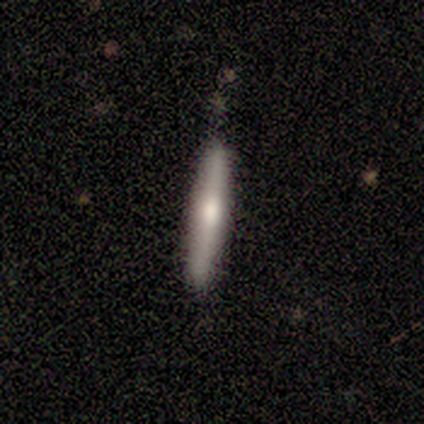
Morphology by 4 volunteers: A smooth galaxy with no disk features (75%) that is cigar-shaped (100%).

Vote fractions:
- Smooth or featured? smooth: 75% / featured or disk: 25% / star or artifact: 0%
- How rounded? cigar-shaped: 100% / round: 0% / in between: 0%
- Merging? none: 75% / minor disturbance: 25% / major disturbance: 0% / merger: 0%